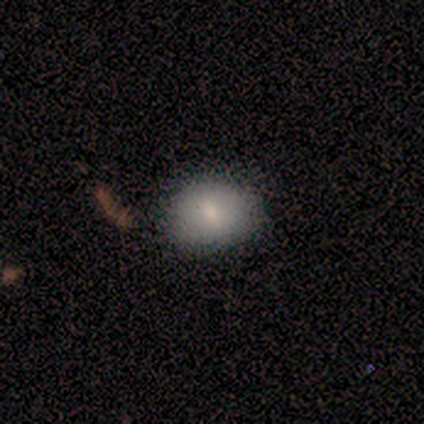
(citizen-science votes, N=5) A smooth galaxy with no disk features (80%) that is round (50%, tied with in between). Merging: none (100%).